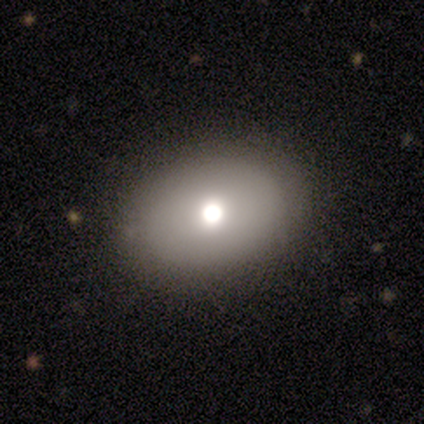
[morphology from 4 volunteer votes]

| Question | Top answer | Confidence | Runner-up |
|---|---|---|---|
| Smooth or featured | featured or disk | 75% | smooth (25%) |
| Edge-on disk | no | 67% | yes (33%) |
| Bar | no | 100% | — |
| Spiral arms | no | 100% | — |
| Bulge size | large | 50% | tied: moderate (50%) |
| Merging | none | 100% | — |